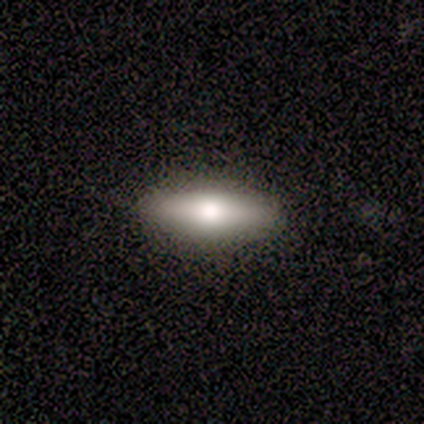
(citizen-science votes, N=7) Smooth or featured? smooth (71%)
How rounded? in between (100%)
Merging? none (100%)